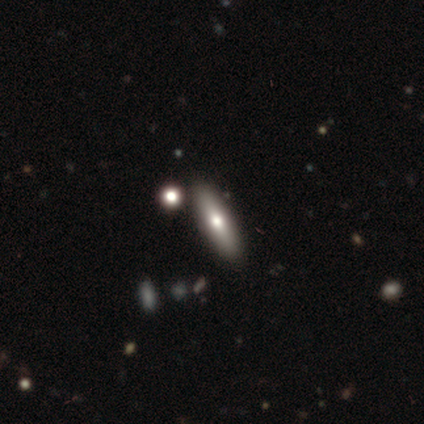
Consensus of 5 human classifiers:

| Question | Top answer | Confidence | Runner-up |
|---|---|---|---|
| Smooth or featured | smooth | 40% | tied: featured or disk (40%) |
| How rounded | in between | 50% | tied: cigar-shaped (50%) |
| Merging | none | 75% | merger (25%) |